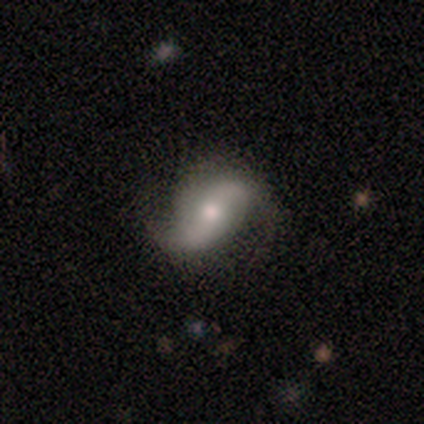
smooth-or-featured: featured or disk: 80% | smooth: 16% | star or artifact: 4%
  disk-edge-on: no: 94% | yes: 6%
    bar: no: 49% | weak: 36% | strong: 15%
    has-spiral-arms: yes: 93% | no: 7%
      spiral-winding: loose: 77% | medium: 21% | tight: 2%
      spiral-arm-count: 2: 95% | 1: 5% | 3: 0% | 4: 0% | more than 4: 0% | can't tell: 0%
    bulge-size: moderate: 52% | small: 42% | large: 4% | none: 1% | dominant: 0%
  merging: none: 69% | minor disturbance: 22% | major disturbance: 8% | merger: 0%